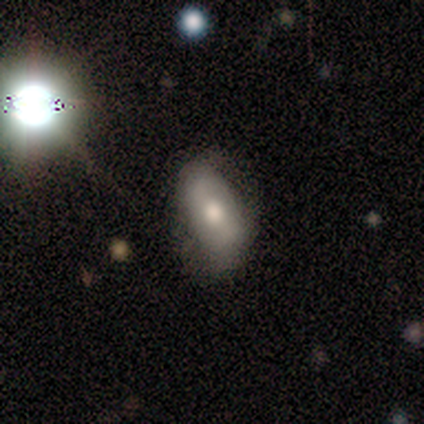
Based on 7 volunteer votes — Volunteers were most divided on "merging": none: 71%, minor disturbance: 14%, major disturbance: 14%, merger: 0%. More confident: how rounded — in between (100%); smooth or featured — smooth (86%).